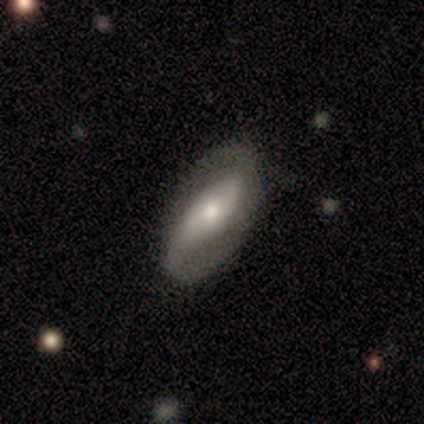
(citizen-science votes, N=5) This is likely a smooth galaxy (60%). How rounded: likely in between (67%). Merging: likely none (60%).